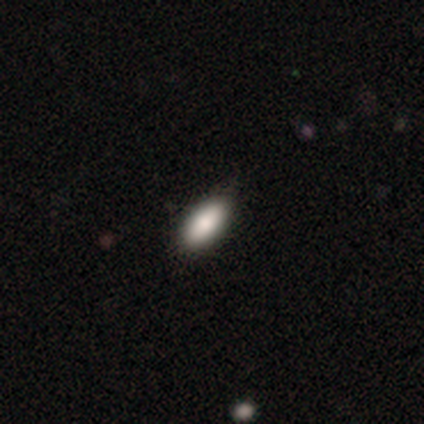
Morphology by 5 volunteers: smooth_or_featured: smooth (p=0.60) [alt: featured or disk p=0.20]
how_rounded: in between (p=1.00)
merging: none (p=0.75) [alt: minor disturbance p=0.25]